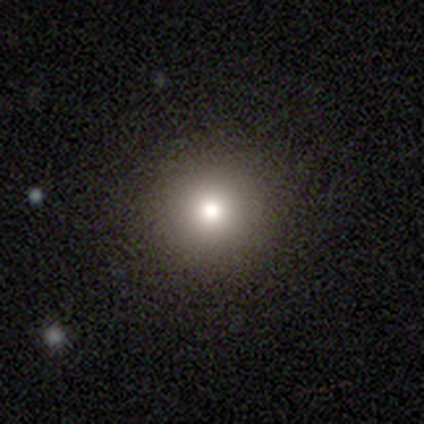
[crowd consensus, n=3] Overall: smooth (67%; star or artifact 33%). How rounded: round (100%). Merging: none (100%).